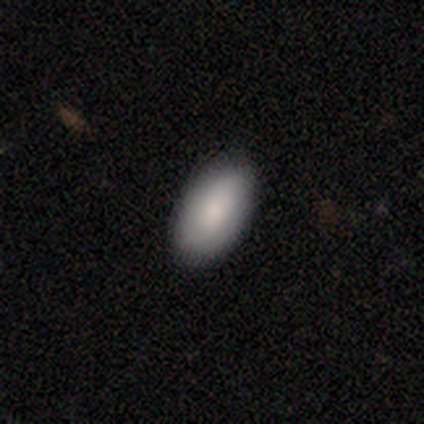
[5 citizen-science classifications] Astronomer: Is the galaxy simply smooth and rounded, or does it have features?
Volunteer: smooth — 80%.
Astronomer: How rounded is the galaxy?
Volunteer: in between — 100%.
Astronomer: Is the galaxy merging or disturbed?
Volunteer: none — 100%.